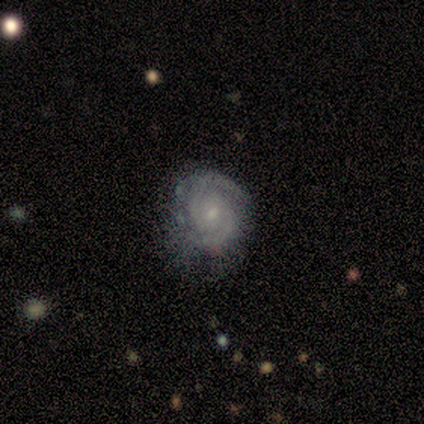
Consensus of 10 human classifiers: Smooth or featured: featured or disk — 80% (smooth — 20%)
Edge-on disk: no — 100%
Bar: weak — 50% (tied with no — 50%)
Spiral arms: yes — 100%
Spiral winding: tight — 75% (medium — 25%)
Spiral arm count: 2 — 75% (can't tell — 25%)
Bulge size: small — 50% (moderate — 38%)
Merging: minor disturbance — 50% (none — 40%)